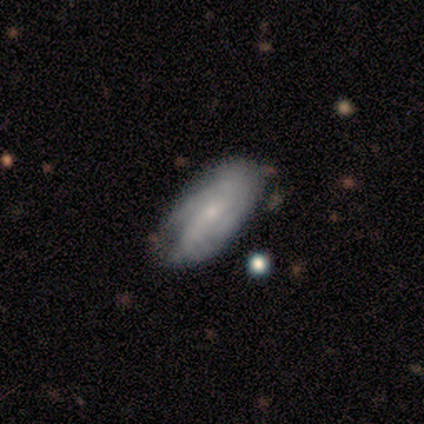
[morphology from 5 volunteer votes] Smooth or featured: featured or disk — 80% (smooth — 20%)
Edge-on disk: no — 100%
Bar: weak — 50% (tied with no — 50%)
Spiral arms: yes — 100%
Spiral winding: tight — 50% (tied with medium — 50%)
Spiral arm count: 2 — 50% (4 — 25%)
Bulge size: small — 50% (dominant — 25%)
Merging: none — 60% (minor disturbance — 20%)